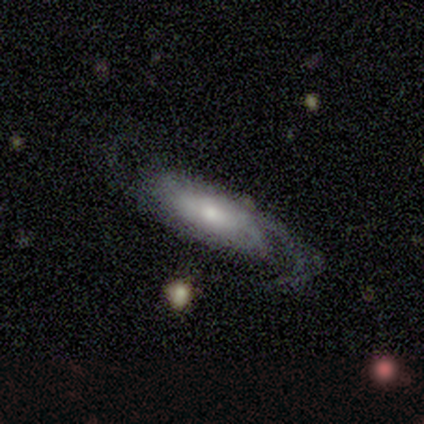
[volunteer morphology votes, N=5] featured or disk 60%, smooth 40%, star or artifact 0%. Down the decision tree: edge-on disk — no (100%); bar — no (100%); spiral arms — yes (67%); spiral arm count — 2 (50%, tied with can't tell); spiral winding — medium (100%); bulge size — moderate (67%); merging — none (40%, tied with major disturbance).